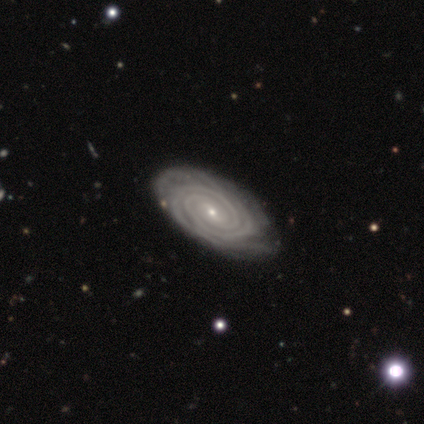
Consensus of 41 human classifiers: Smooth or featured?
  - featured or disk: 95% *
  - smooth: 2%
  - star or artifact: 2%
Edge-on disk?
  - no: 97% *
  - yes: 3%
Bar?
  - weak: 45% *
  - no: 37%
  - strong: 18%
Spiral arms?
  - yes: 100% *
  - no: 0%
Spiral winding?
  - tight: 89% *
  - medium: 5%
  - loose: 5%
Spiral arm count?
  - 2: 47% *
  - 4: 21%
  - more than 4: 16%
  - can't tell: 11%
  - 3: 5%
  - 1: 0%
Bulge size?
  - small: 87% *
  - moderate: 11%
  - none: 3%
  - dominant: 0%
  - large: 0%
Merging?
  - none: 72% *
  - minor disturbance: 28%
  - major disturbance: 0%
  - merger: 0%